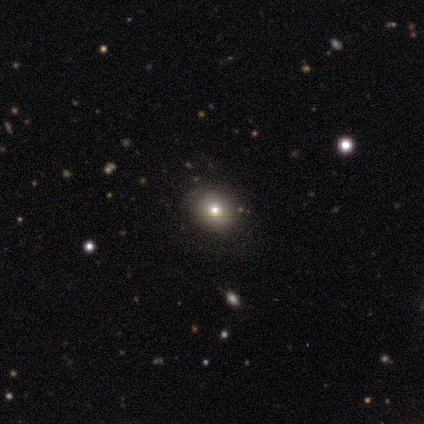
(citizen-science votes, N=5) Volunteers were most divided on "smooth or featured": smooth: 80%, featured or disk: 20%, star or artifact: 0%. More confident: how rounded — round (100%); merging — none (100%).